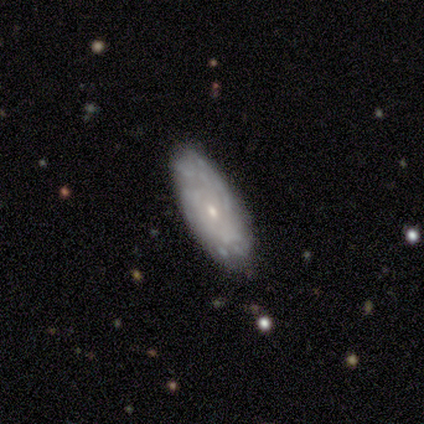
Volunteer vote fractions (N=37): A featured or disk galaxy (70%) with no bar (90%), medium (55%) spiral arms (52%) and a small central bulge (86%).

Vote fractions:
- Smooth or featured? featured or disk: 70% / smooth: 24% / star or artifact: 5%
- Edge-on disk? no: 81% / yes: 19%
- Bar? no: 90% / weak: 10% / strong: 0%
- Spiral arms? yes: 52% / no: 48%
- Spiral winding? medium: 55% / tight: 45% / loose: 0%
- Spiral arm count? can't tell: 73% / 3: 27% / 1: 0% / 2: 0% / 4: 0% / more than 4: 0%
- Bulge size? small: 86% / moderate: 14% / dominant: 0% / large: 0% / none: 0%
- Merging? none: 80% / minor disturbance: 14% / major disturbance: 6% / merger: 0%